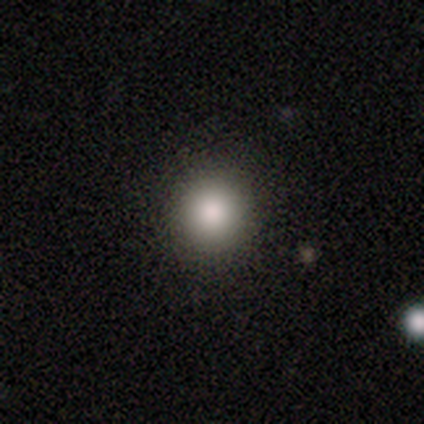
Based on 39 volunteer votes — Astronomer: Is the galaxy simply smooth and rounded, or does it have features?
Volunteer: smooth — 85%.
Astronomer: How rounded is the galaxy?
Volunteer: round — 91%.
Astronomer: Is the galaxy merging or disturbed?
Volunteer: none — 63%.